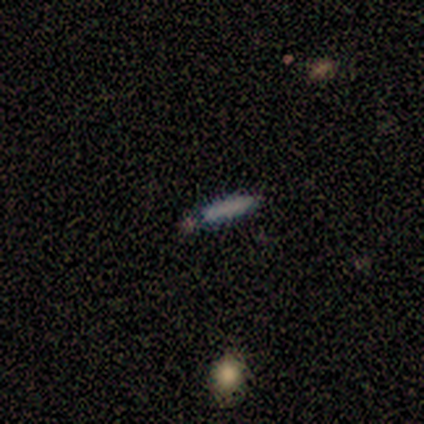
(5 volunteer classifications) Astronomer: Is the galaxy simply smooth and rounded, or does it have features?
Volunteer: smooth — 80%.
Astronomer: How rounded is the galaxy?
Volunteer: cigar-shaped — 100%.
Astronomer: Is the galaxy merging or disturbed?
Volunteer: none — 80%.